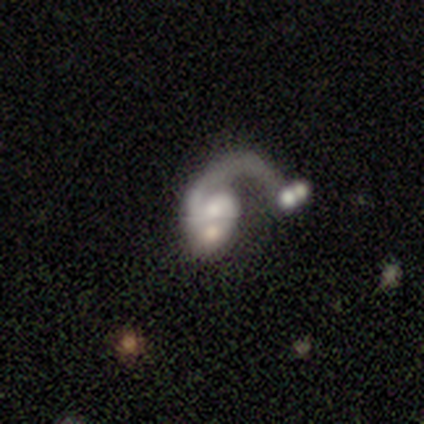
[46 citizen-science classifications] featured or disk 85%, smooth 15%, star or artifact 0%. Down the decision tree: edge-on disk — no (100%); bar — no (59%); spiral arms — yes (92%); spiral arm count — 1 (78%); spiral winding — loose (64%); bulge size — moderate (36%); merging — merger (54%).